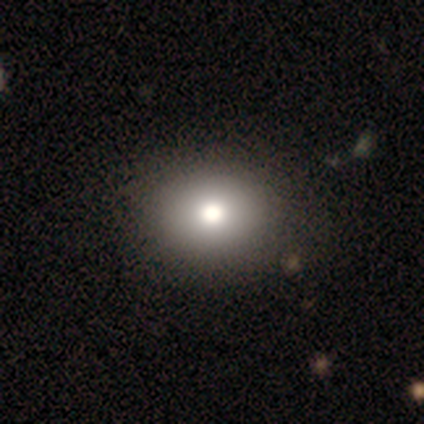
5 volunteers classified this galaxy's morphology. Smooth or featured? 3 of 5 (60%) said smooth. How rounded? 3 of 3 (100%) said round. Merging? 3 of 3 (100%) said none.